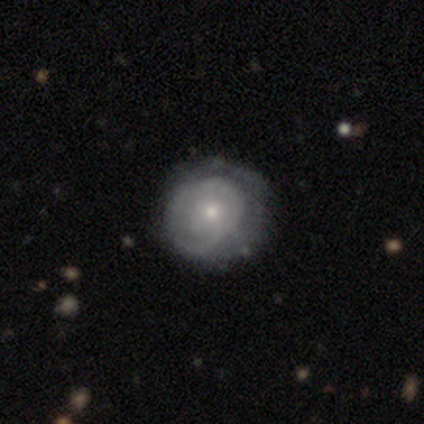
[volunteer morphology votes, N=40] Overall: featured or disk (70%). Edge-on disk: no (100%). Bar: no (93%). Spiral arms: yes (57%; no 43%). Spiral arm count: can't tell (62%). Spiral winding: tight (81%). Bulge size: moderate (57%; small 36%). Merging: none (66%).